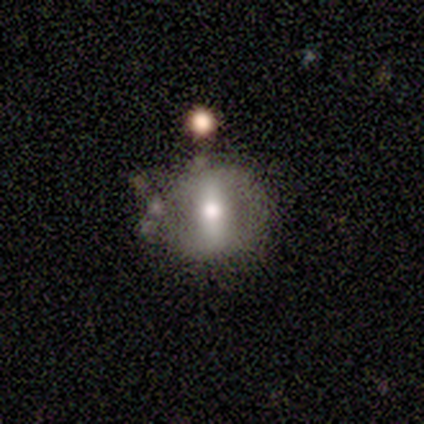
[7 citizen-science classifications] Volunteers were most divided on "smooth or featured": smooth: 57%, featured or disk: 43%, star or artifact: 0%. More confident: how rounded — round (100%); merging — none (86%).